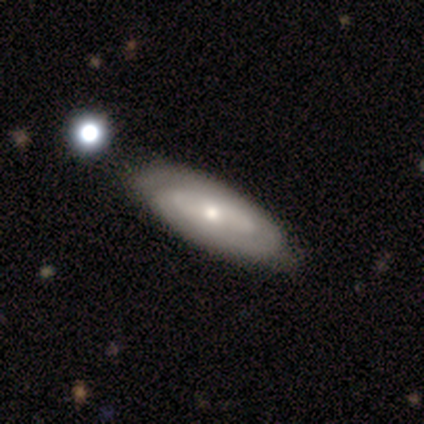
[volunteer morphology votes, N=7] type=featured or disk (57%); edge-on=no (100%); bar=no (75%); spiral arms=yes (100%); winding=tight (75%); arm count=2 (50%, tied with can't tell); bulge=small (75%); merging=none (50%).